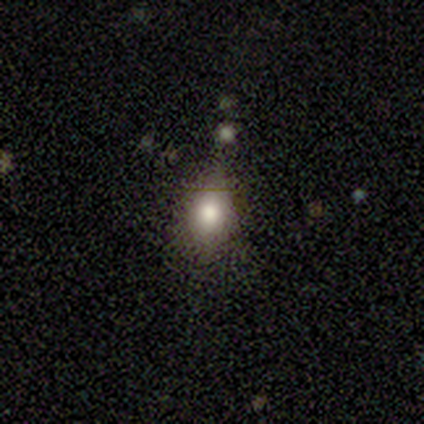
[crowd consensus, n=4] Smooth or featured? smooth (50%, tied with featured or disk)
How rounded? round (50%, tied with in between)
Merging? none (75%)